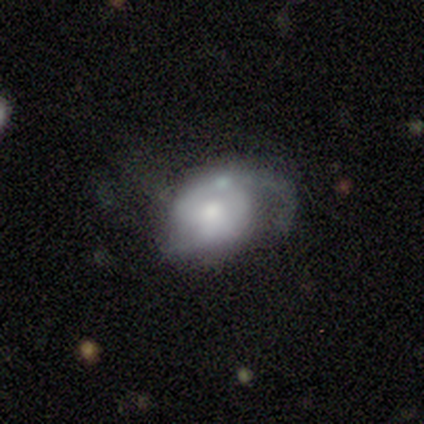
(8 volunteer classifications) A featured or disk galaxy (88%) with no bar (86%), 2 (60%) medium (60%) spiral arms (71%) and a moderate central bulge (57%).

Vote fractions:
- Smooth or featured? featured or disk: 88% / star or artifact: 12% / smooth: 0%
- Edge-on disk? no: 100% / yes: 0%
- Bar? no: 86% / weak: 14% / strong: 0%
- Spiral arms? yes: 71% / no: 29%
- Spiral winding? medium: 60% / tight: 20% / loose: 20%
- Spiral arm count? 2: 60% / can't tell: 40% / 1: 0% / 3: 0% / 4: 0% / more than 4: 0%
- Bulge size? moderate: 57% / small: 43% / dominant: 0% / large: 0% / none: 0%
- Merging? major disturbance: 57% / none: 14% / minor disturbance: 14% / merger: 14%